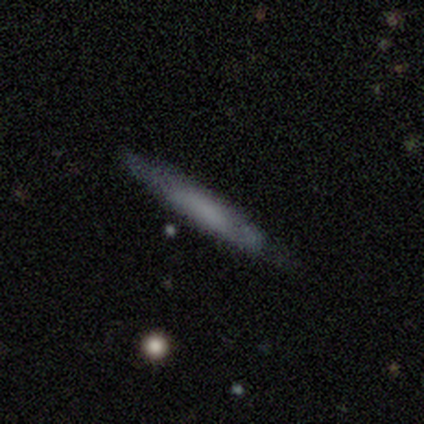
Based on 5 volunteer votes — This is clearly a smooth galaxy (80%). How rounded: clearly cigar-shaped (100%). Merging: likely none (60%).